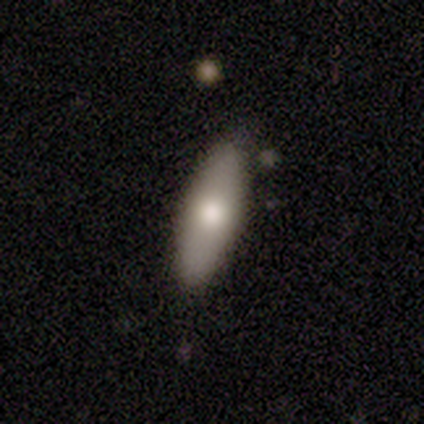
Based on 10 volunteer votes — Smooth or featured? smooth (60%)
How rounded? in between (67%)
Merging? none (100%)